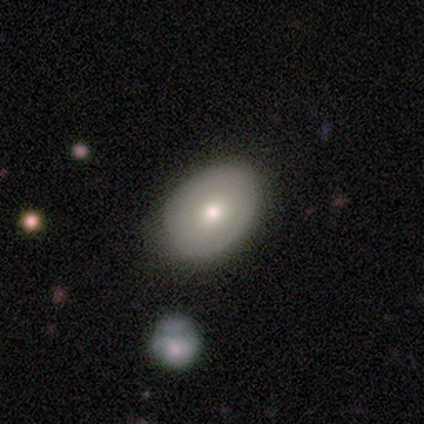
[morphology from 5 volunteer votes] Smooth or featured: smooth — 80% (featured or disk — 20%)
How rounded: in between — 75% (round — 25%)
Merging: none — 100%